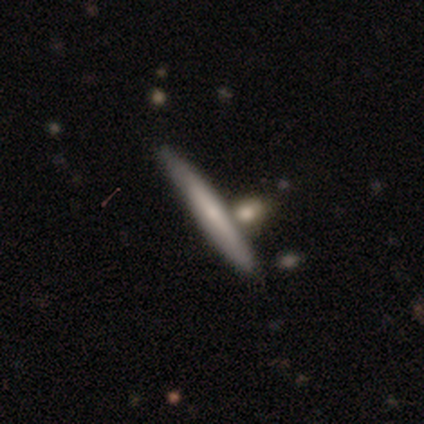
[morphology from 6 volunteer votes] smooth 50% (tied), featured or disk 50% (tied), star or artifact 0%. Down the decision tree: how rounded — cigar-shaped (100%); merging — none (67%).